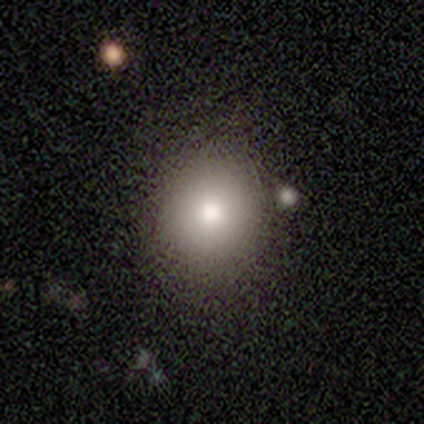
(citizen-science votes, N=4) smooth 100%, featured or disk 0%, star or artifact 0%. Down the decision tree: how rounded — round (100%); merging — none (100%).